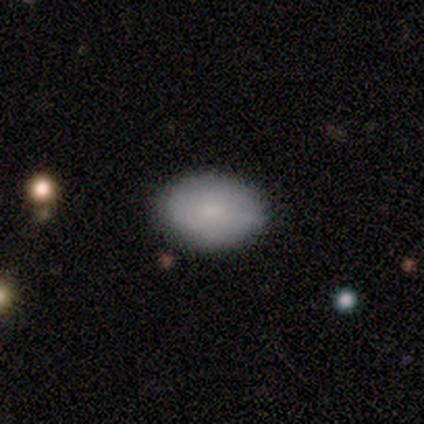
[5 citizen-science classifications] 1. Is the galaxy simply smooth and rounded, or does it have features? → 60% smooth, 20% featured or disk, 20% star or artifact.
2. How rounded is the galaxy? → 67% in between, 33% round, 0% cigar-shaped.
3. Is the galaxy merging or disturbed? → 75% none, 25% minor disturbance, 0% major disturbance, 0% merger.